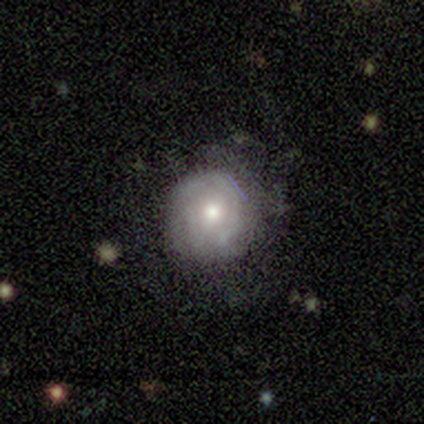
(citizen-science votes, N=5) Overall: featured or disk (60%; star or artifact 40%). Edge-on disk: no (100%). Bar: no (100%). Spiral arms: yes (100%). Spiral arm count: 3 (67%; can't tell 33%). Spiral winding: tight (67%; medium 33%). Bulge size: moderate (100%). Merging: minor disturbance (67%; none 33%).